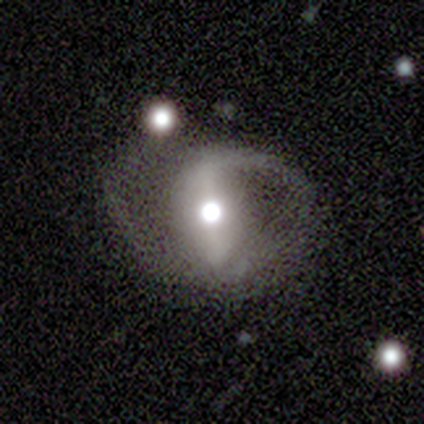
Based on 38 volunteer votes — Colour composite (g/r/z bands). It shows a featured or disk galaxy (95%) with a strong bar (62%), 2 (80%) loose (47%) spiral arms (88%) and a moderate central bulge (74%). Merging: none (43%).